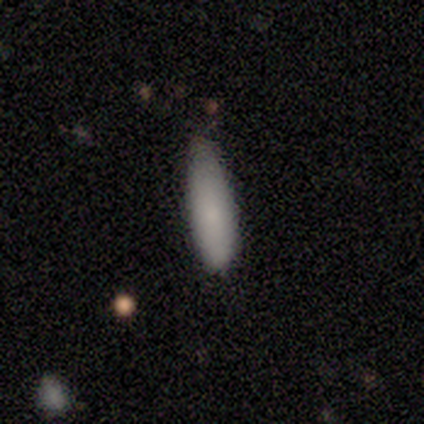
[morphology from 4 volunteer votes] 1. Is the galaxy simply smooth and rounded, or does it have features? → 100% smooth, 0% featured or disk, 0% star or artifact.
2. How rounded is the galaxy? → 50% in between (tied), 50% cigar-shaped (tied), 0% round.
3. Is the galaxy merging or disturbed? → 75% none, 25% minor disturbance, 0% major disturbance, 0% merger.